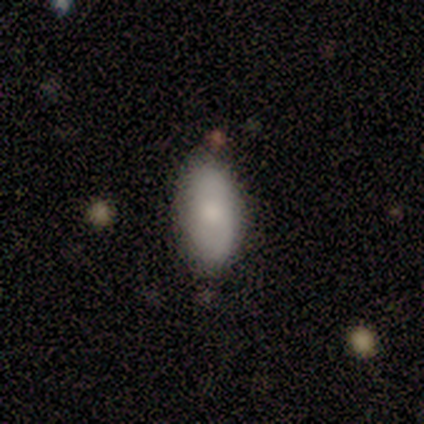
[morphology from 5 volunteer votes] A smooth galaxy with no disk features (80%) that is in between round and cigar-shaped (100%).

Vote fractions:
- Smooth or featured? smooth: 80% / star or artifact: 20% / featured or disk: 0%
- How rounded? in between: 100% / round: 0% / cigar-shaped: 0%
- Merging? none: 100% / minor disturbance: 0% / major disturbance: 0% / merger: 0%